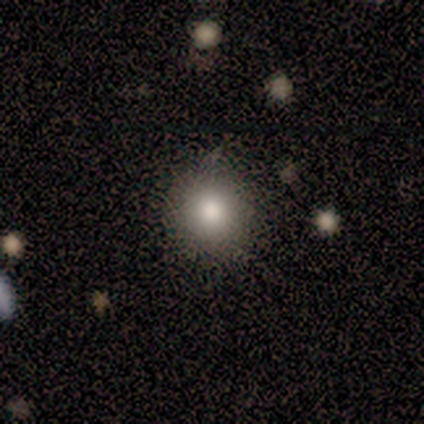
Smooth or featured?
  - smooth: 80% *
  - featured or disk: 20%
  - star or artifact: 0%
How rounded?
  - round: 100% *
  - in between: 0%
  - cigar-shaped: 0%
Merging?
  - none: 80% *
  - minor disturbance: 20%
  - major disturbance: 0%
  - merger: 0%